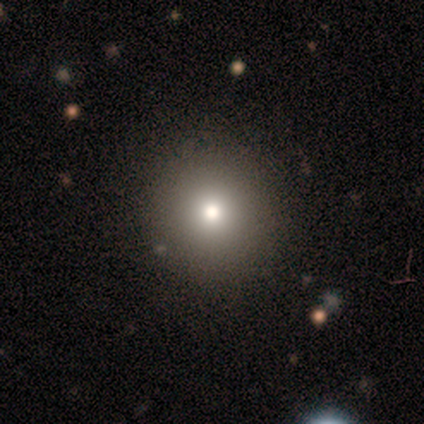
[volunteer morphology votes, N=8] Smooth or featured: smooth — 62% (featured or disk — 25%)
How rounded: round — 80% (in between — 20%)
Merging: none — 86% (major disturbance — 14%)